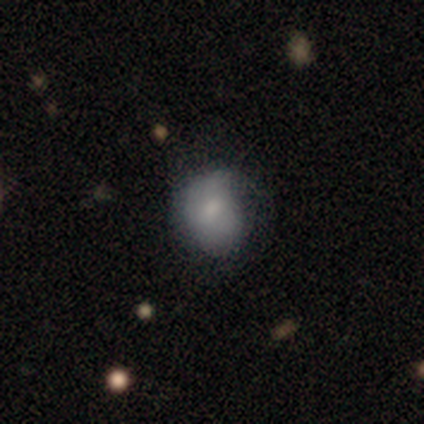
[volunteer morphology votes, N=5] This appears to be a smooth galaxy with no disk features (80%) that is round (50%, tied with in between). Merging: minor disturbance (60%).